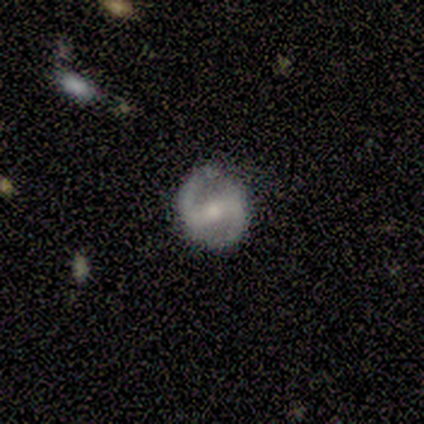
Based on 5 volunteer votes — A featured or disk galaxy (100%) with a strong bar (80%), 2 (100%) medium (60%) spiral arms (100%) and a small central bulge (80%).

Vote fractions:
- Smooth or featured? featured or disk: 100% / smooth: 0% / star or artifact: 0%
- Edge-on disk? no: 100% / yes: 0%
- Bar? strong: 80% / weak: 20% / no: 0%
- Spiral arms? yes: 100% / no: 0%
- Spiral winding? medium: 60% / loose: 40% / tight: 0%
- Spiral arm count? 2: 100% / 1: 0% / 3: 0% / 4: 0% / more than 4: 0% / can't tell: 0%
- Bulge size? small: 80% / moderate: 20% / dominant: 0% / large: 0% / none: 0%
- Merging? none: 100% / minor disturbance: 0% / major disturbance: 0% / merger: 0%